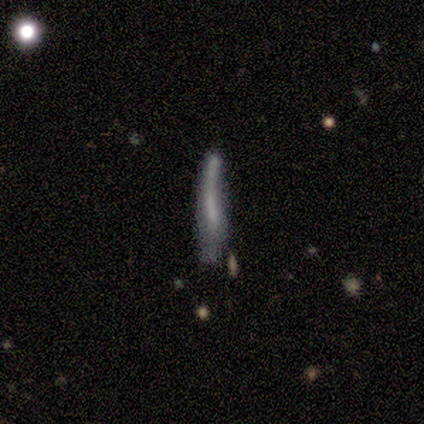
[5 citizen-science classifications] This appears to be a featured or disk galaxy (60%) viewed edge-on (100%) with no central bulge (100%). Merging: minor disturbance (40%, tied with merger).